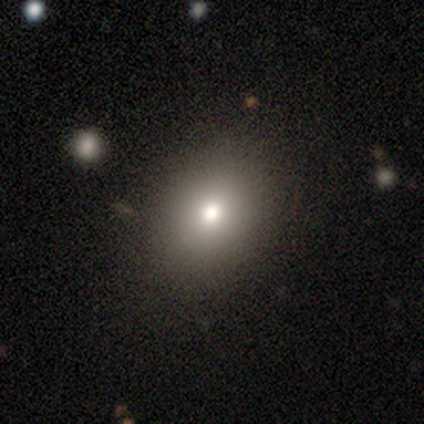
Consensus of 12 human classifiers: A smooth galaxy with no disk features (92%) that is in between round and cigar-shaped (82%). Merging: none (83%).